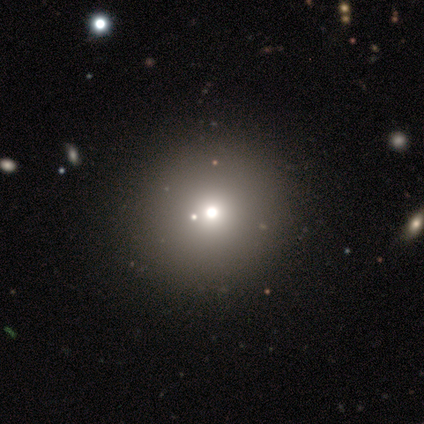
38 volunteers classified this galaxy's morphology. smooth 61%, star or artifact 24%, featured or disk 16%. Down the decision tree: how rounded — round (96%); merging — none (76%).